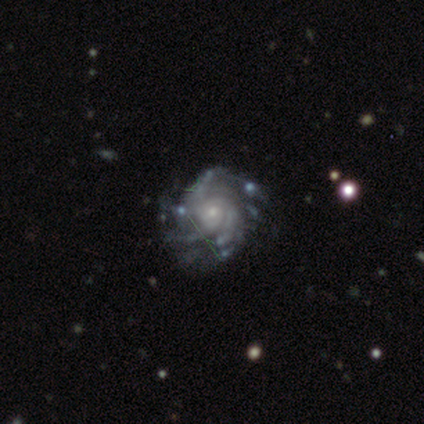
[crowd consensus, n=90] featured or disk 89%, star or artifact 7%, smooth 4%. Down the decision tree: edge-on disk — no (99%); bar — no (78%); spiral arms — yes (99%); spiral arm count — more than 4 (35%); spiral winding — tight (76%); bulge size — small (75%); merging — none (67%).